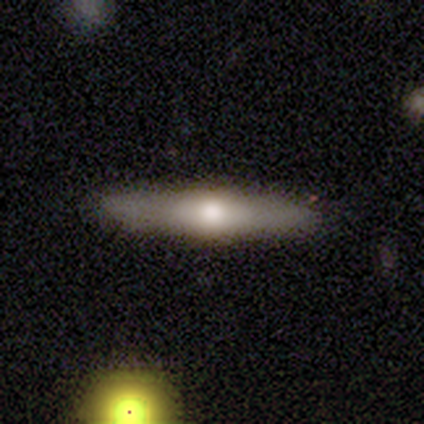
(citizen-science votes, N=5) Morphology: type=featured or disk (100%); edge-on=yes (100%); edge-on bulge=rounded (100%); merging=none (100%).